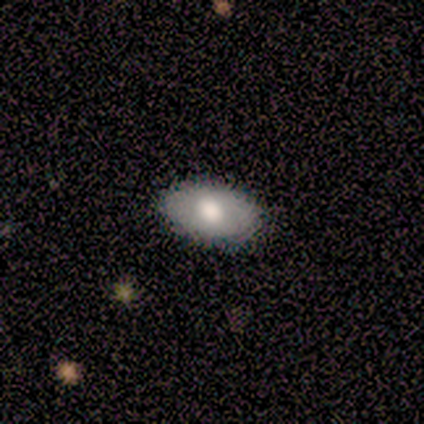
A smooth galaxy with no disk features (100%) that is in between round and cigar-shaped (100%).

Vote fractions:
- Smooth or featured? smooth: 100% / featured or disk: 0% / star or artifact: 0%
- How rounded? in between: 100% / round: 0% / cigar-shaped: 0%
- Merging? none: 67% / minor disturbance: 33% / major disturbance: 0% / merger: 0%